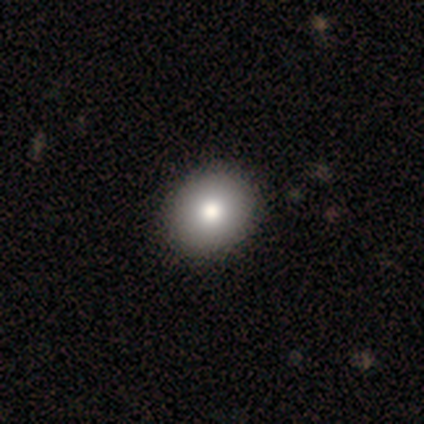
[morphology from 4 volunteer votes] smooth_or_featured: smooth (p=1.00)
how_rounded: round (p=1.00)
merging: none (p=0.50) [alt: minor disturbance p=0.25]